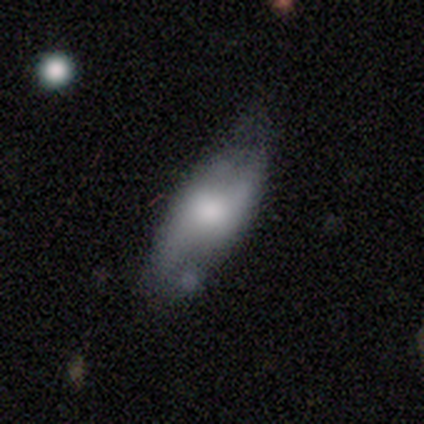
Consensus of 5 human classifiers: featured or disk 60%, smooth 40%, star or artifact 0%. Down the decision tree: edge-on disk — no (67%); bar — weak (50%, tied with no); spiral arms — yes (100%); spiral arm count — can't tell (100%); spiral winding — medium (50%, tied with loose); bulge size — moderate (100%); merging — none (60%).